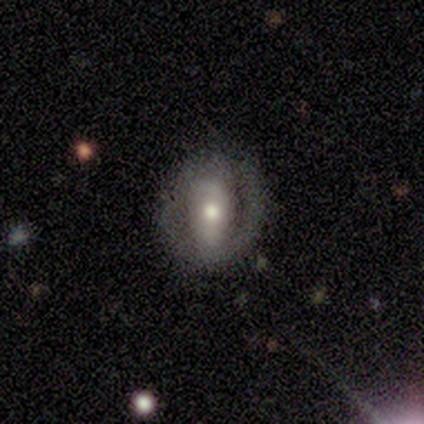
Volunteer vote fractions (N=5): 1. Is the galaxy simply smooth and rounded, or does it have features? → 100% featured or disk, 0% smooth, 0% star or artifact.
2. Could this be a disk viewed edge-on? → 100% no, 0% yes.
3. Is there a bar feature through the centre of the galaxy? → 40% weak (tied), 40% no (tied), 20% strong.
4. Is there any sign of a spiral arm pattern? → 60% yes, 40% no.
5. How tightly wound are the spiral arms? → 100% tight, 0% medium, 0% loose.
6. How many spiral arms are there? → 67% 2, 33% can't tell, 0% 1, 0% 3, 0% 4, 0% more than 4.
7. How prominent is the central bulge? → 40% small, 20% large, 20% moderate, 20% none, 0% dominant.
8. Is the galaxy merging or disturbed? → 100% none, 0% minor disturbance, 0% major disturbance, 0% merger.